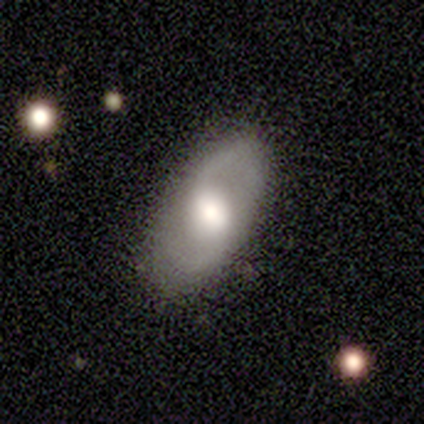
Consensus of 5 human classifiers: This appears to be a featured or disk galaxy (100%) with a weak bar (40%, tied with no), 2 (50%, tied with can't tell) loose (50%) spiral arms (80%) and a large central bulge (80%). Merging: none (100%).